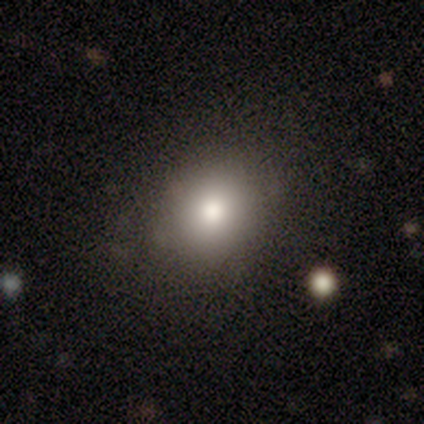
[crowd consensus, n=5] smooth 100%, featured or disk 0%, star or artifact 0%. Down the decision tree: how rounded — round (60%); merging — none (80%).